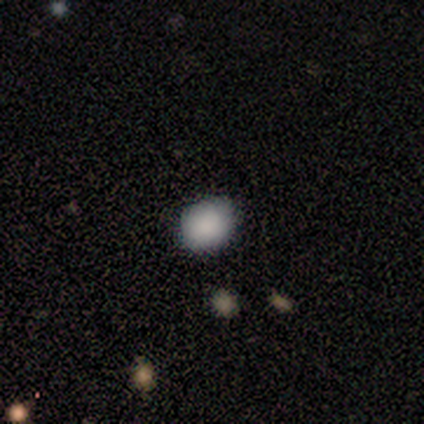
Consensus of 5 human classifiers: This is clearly a smooth galaxy (100%). How rounded: likely in between (60%). Merging: clearly none (80%).